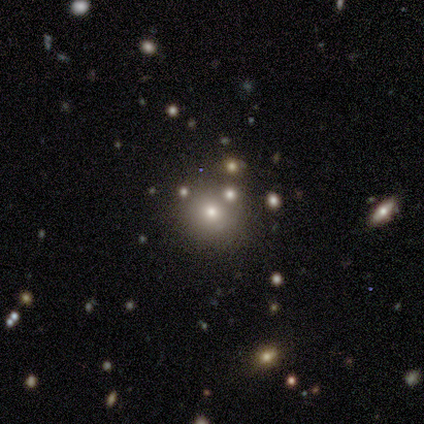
This is marginally a smooth galaxy (40%, tied with star or artifact). How rounded: possibly round (50%, tied with in between). Merging: likely none (67%).